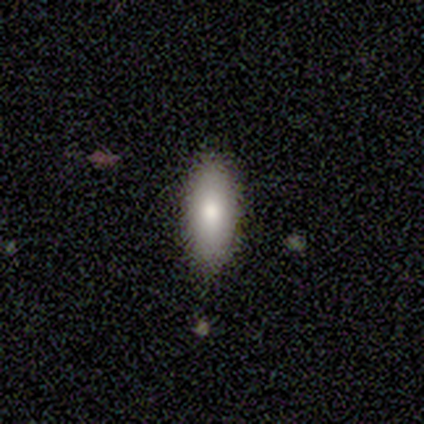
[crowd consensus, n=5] A smooth galaxy with no disk features (80%) that is in between round and cigar-shaped (100%). Merging: none (100%).